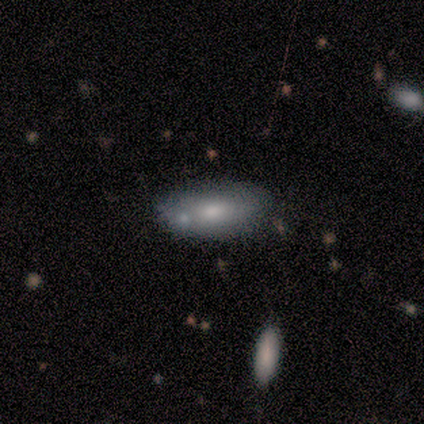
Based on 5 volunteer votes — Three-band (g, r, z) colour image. It shows a smooth galaxy with no disk features (80%) that is in between round and cigar-shaped (100%). Merging: none (75%).